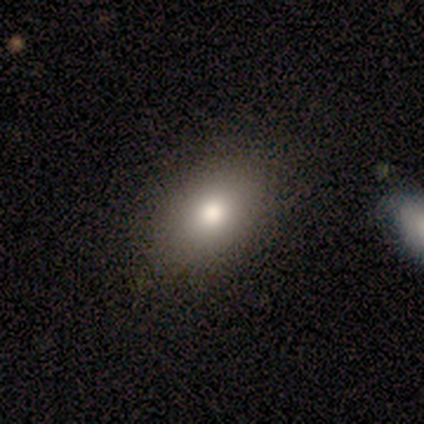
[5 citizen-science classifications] A smooth galaxy with no disk features (80%) that is in between round and cigar-shaped (100%). Merging: none (100%).